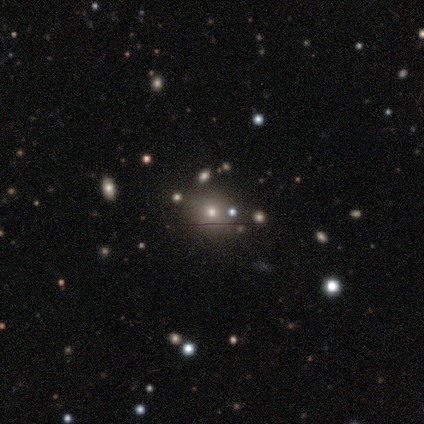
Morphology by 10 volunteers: smooth-or-featured: smooth: 60% | star or artifact: 30% | featured or disk: 10%
  how-rounded: round: 50% (tied) | in between: 50% (tied) | cigar-shaped: 0%
  merging: none: 100% | minor disturbance: 0% | major disturbance: 0% | merger: 0%